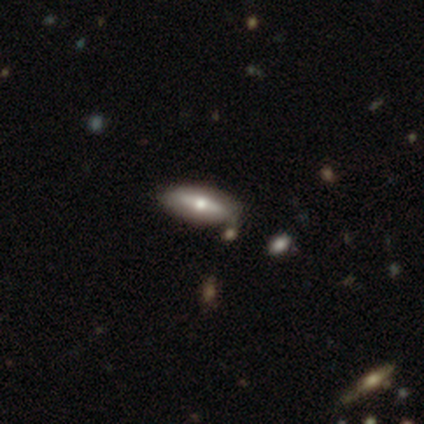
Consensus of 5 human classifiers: Smooth or featured: smooth — 60% (featured or disk — 40%)
How rounded: in between — 67% (cigar-shaped — 33%)
Merging: none — 80% (minor disturbance — 20%)